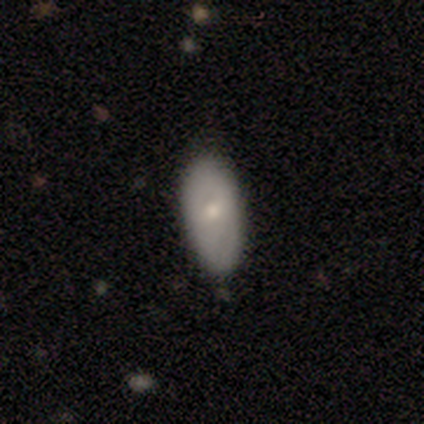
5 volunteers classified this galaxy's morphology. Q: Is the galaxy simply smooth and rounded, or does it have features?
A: smooth — 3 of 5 (60%).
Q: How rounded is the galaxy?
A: in between — 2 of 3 (67%).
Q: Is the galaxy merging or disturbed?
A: none — 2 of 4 (50%, tied with minor disturbance).